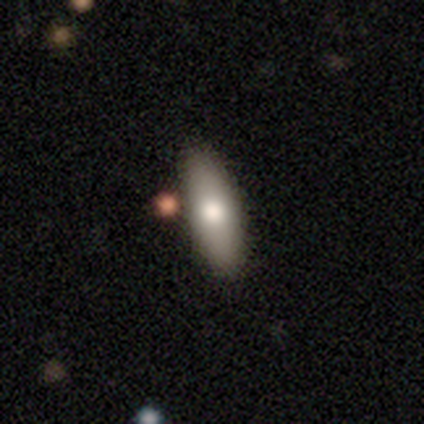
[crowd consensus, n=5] A smooth galaxy with no disk features (40%, tied with featured or disk) that is cigar-shaped (100%).

Vote fractions:
- Smooth or featured? smooth: 40% (tied) / featured or disk: 40% (tied) / star or artifact: 20%
- How rounded? cigar-shaped: 100% / round: 0% / in between: 0%
- Merging? none: 100% / minor disturbance: 0% / major disturbance: 0% / merger: 0%